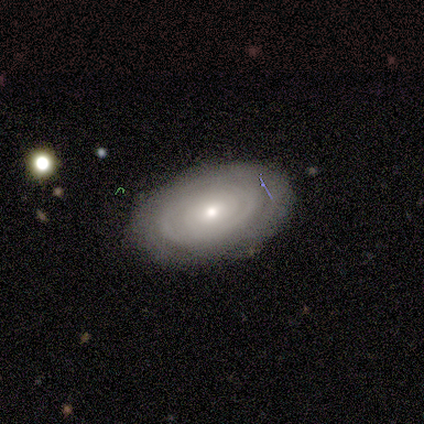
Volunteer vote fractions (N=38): A featured or disk galaxy (53%) with no bar (79%), tight (69%) spiral arms (68%) and a small central bulge (58%). Merging: none (78%).